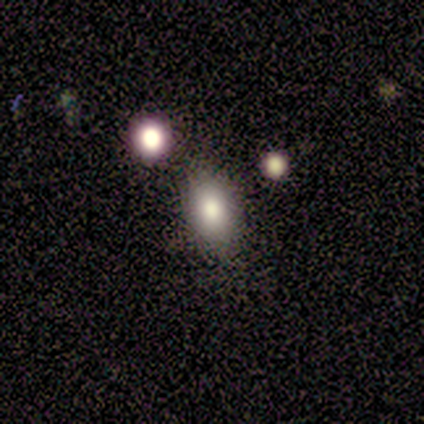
Smooth or featured?
  - smooth: 60% *
  - featured or disk: 40%
  - star or artifact: 0%
How rounded?
  - in between: 100% *
  - round: 0%
  - cigar-shaped: 0%
Merging?
  - none: 60% *
  - minor disturbance: 40%
  - major disturbance: 0%
  - merger: 0%